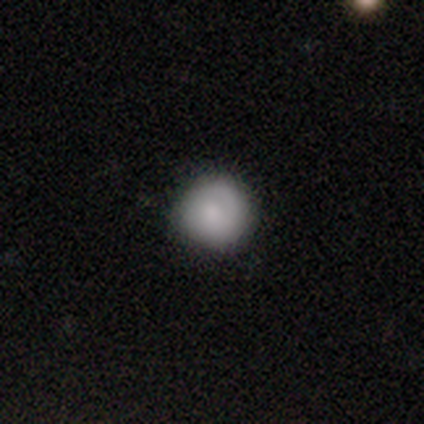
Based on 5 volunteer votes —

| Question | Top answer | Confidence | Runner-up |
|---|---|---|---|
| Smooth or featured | smooth | 80% | star or artifact (20%) |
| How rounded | round | 100% | — |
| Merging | none | 75% | minor disturbance (25%) |